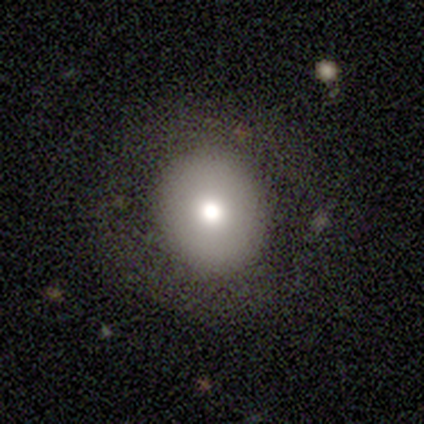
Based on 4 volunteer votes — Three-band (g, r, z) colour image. It shows a smooth galaxy with no disk features (50%) that is round (100%). Merging: none (100%).